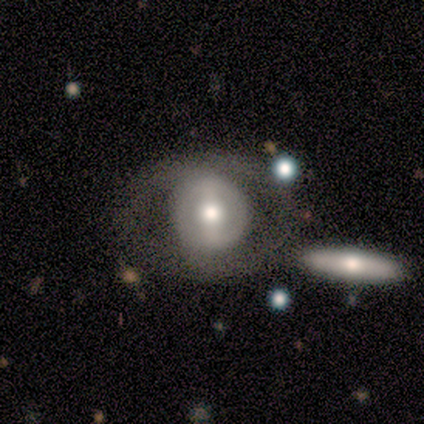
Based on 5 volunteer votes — Volunteers were most divided on "bulge size" (3-way tie): large: 33%, moderate: 33%, small: 33%, dominant: 0%, none: 0%. More confident: edge-on disk — no (100%); spiral arms — no (100%); merging — none (80%); bar — strong (67%); smooth or featured — featured or disk (60%).